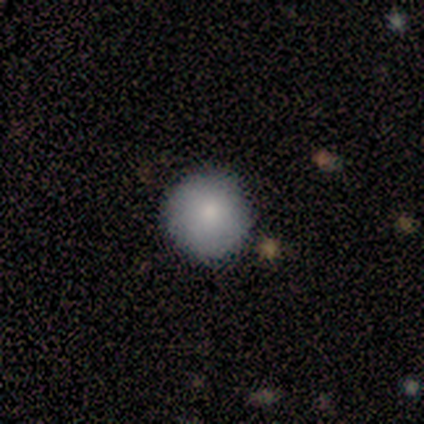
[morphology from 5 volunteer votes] A smooth galaxy with no disk features (80%) that is round (75%).

Vote fractions:
- Smooth or featured? smooth: 80% / star or artifact: 20% / featured or disk: 0%
- How rounded? round: 75% / in between: 25% / cigar-shaped: 0%
- Merging? none: 100% / minor disturbance: 0% / major disturbance: 0% / merger: 0%